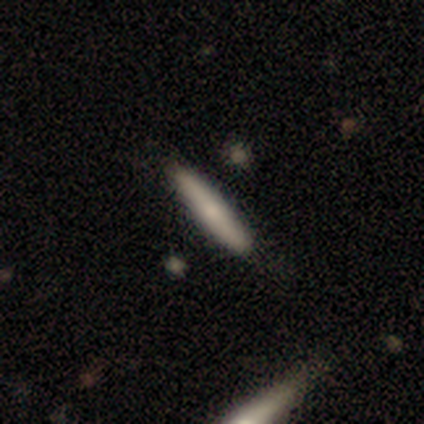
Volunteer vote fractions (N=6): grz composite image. It shows a smooth galaxy with no disk features (50%, tied with featured or disk) that is cigar-shaped (100%). Merging: none (100%).